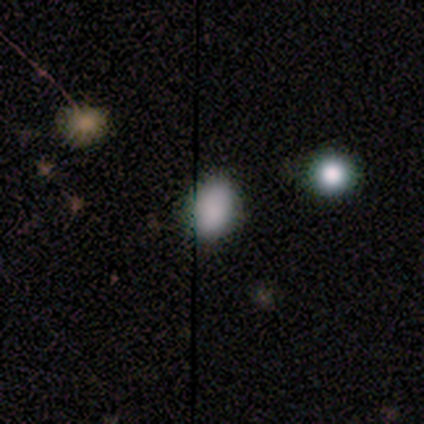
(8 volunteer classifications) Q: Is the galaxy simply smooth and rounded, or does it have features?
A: smooth — 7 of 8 (88%).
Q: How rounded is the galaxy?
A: in between — 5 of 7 (71%).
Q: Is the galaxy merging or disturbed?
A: none — 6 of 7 (86%).